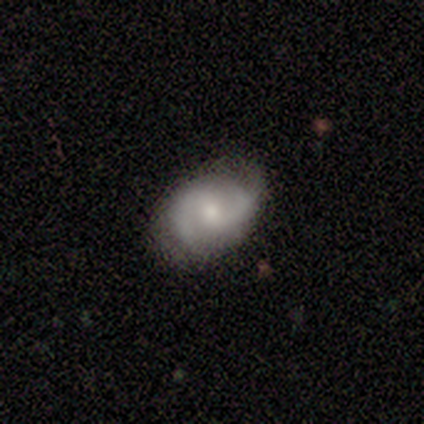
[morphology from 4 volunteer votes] smooth_or_featured: featured or disk (p=1.00)
disk_edge_on: yes (p=0.50) [tied with: no p=0.50]
edge_on_bulge: rounded (p=1.00)
merging: none (p=0.50) [tied with: minor disturbance p=0.50]